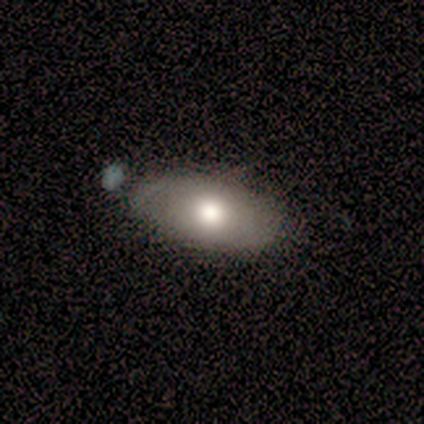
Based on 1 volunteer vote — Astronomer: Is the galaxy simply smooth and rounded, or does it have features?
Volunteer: featured or disk — 100%.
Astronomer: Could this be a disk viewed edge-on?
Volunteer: no — 100%.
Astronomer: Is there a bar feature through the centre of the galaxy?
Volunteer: no — 100%.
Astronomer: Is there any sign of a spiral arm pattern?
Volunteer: yes — 100%.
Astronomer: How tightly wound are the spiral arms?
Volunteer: tight — 100%.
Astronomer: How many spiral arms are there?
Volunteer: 4 — 100%.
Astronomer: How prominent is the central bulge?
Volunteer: large — 100%.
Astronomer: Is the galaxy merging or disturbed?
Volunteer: merger — 100%.